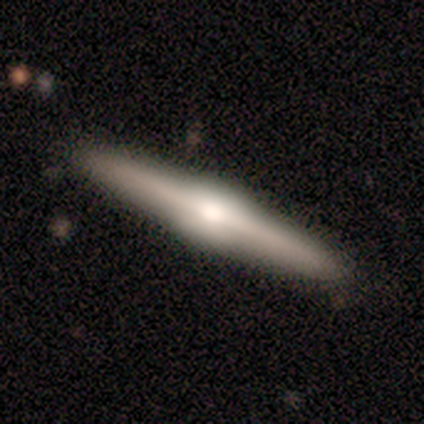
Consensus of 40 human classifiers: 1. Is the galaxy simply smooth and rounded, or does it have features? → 80% featured or disk, 20% smooth, 0% star or artifact.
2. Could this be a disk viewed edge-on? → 100% yes, 0% no.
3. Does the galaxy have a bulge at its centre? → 81% rounded, 19% boxy, 0% none.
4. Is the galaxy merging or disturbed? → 95% none, 2% minor disturbance, 2% major disturbance, 0% merger.